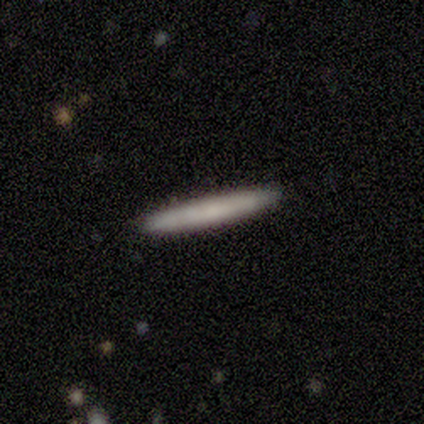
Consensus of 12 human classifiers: Smooth or featured: smooth — 58% (featured or disk — 42%)
How rounded: cigar-shaped — 100%
Merging: none — 100%